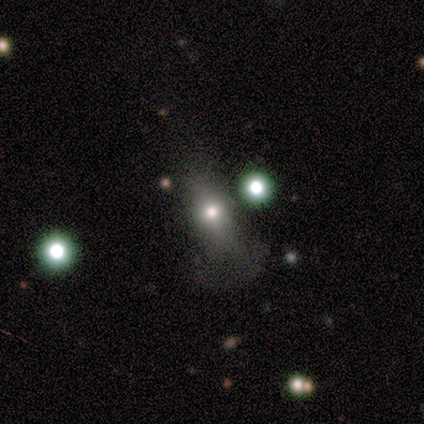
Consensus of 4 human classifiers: Volunteers were most divided on "merging" (3-way tie): none: 33%, minor disturbance: 33%, major disturbance: 33%, merger: 0%. More confident: how rounded — in between (100%); smooth or featured — smooth (75%).